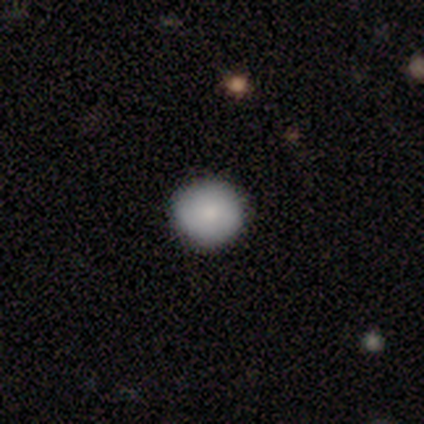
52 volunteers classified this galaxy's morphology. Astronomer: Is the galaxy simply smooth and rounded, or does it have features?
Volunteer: smooth — 83%.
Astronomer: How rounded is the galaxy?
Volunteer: round — 95%.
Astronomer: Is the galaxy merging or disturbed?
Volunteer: none — 94%.